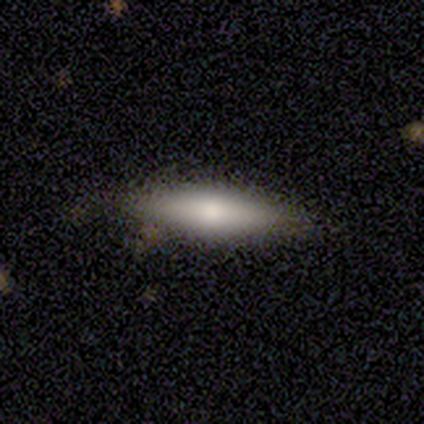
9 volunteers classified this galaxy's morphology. smooth-or-featured: smooth: 78% | featured or disk: 22% | star or artifact: 0%
  how-rounded: cigar-shaped: 71% | in between: 29% | round: 0%
  merging: none: 100% | minor disturbance: 0% | major disturbance: 0% | merger: 0%